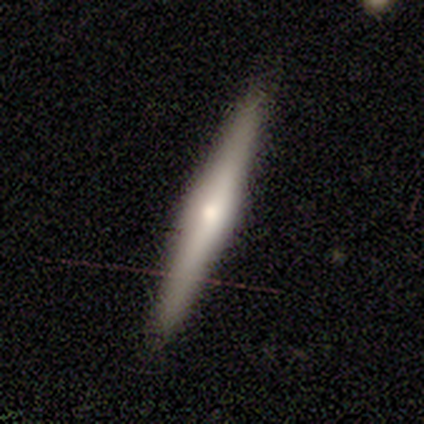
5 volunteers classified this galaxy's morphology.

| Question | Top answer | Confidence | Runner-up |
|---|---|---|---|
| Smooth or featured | featured or disk | 60% | smooth (40%) |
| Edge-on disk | yes | 100% | — |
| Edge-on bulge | rounded | 67% | boxy (33%) |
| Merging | none | 80% | minor disturbance (20%) |